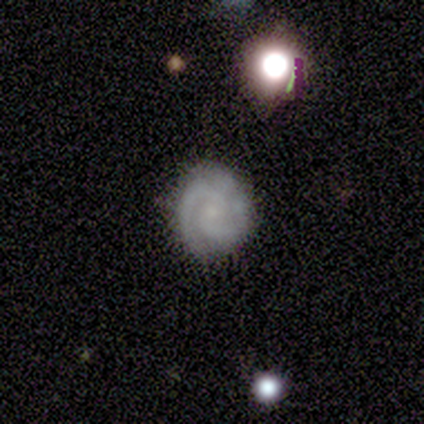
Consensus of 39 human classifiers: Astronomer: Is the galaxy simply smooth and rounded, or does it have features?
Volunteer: featured or disk — 69%.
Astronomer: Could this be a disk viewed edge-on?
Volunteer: no — 100%.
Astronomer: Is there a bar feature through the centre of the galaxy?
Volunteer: no — 78%.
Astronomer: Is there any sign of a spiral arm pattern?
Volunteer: yes — 93%.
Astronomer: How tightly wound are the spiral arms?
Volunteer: tight — 64%.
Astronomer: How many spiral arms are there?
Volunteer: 2 — 80%.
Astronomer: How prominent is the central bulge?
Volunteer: small — 56%.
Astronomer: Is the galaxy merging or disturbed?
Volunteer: none — 73%.